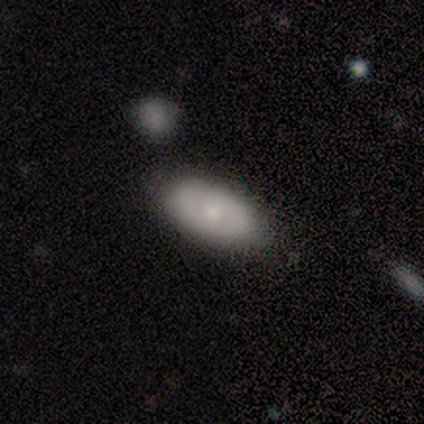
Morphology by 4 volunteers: smooth 100%, featured or disk 0%, star or artifact 0%. Down the decision tree: how rounded — in between (100%); merging — none (100%).